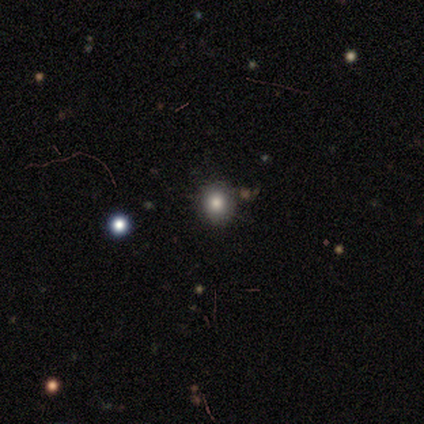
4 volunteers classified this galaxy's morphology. Q: Smooth or featured?
A: smooth (100%)
Q: How rounded?
A: round (100%)
Q: Merging?
A: none (100%)